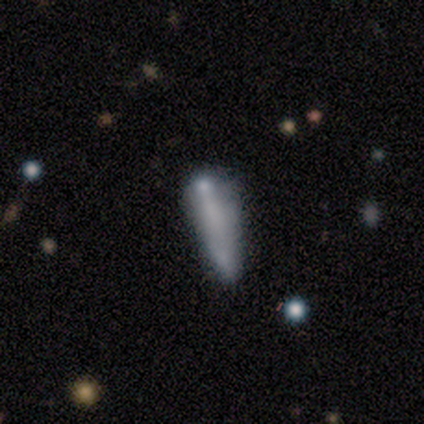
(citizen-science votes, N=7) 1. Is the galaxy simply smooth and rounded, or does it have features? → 43% smooth, 29% featured or disk, 29% star or artifact.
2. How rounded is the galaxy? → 100% cigar-shaped, 0% round, 0% in between.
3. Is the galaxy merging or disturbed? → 60% minor disturbance, 20% major disturbance, 20% merger, 0% none.